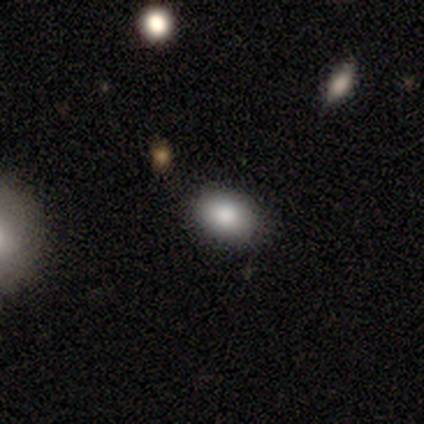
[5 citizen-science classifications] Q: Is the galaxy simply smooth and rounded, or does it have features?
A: smooth — 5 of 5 (100%).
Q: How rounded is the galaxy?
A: in between — 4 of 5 (80%).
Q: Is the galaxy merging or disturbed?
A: none — 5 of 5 (100%).